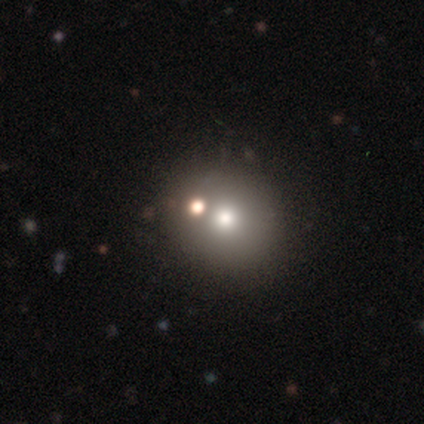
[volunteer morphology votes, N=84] smooth_or_featured: smooth (p=0.56) [alt: featured or disk p=0.23]
how_rounded: round (p=0.94) [alt: in between p=0.06]
merging: none (p=0.71) [alt: merger p=0.18]